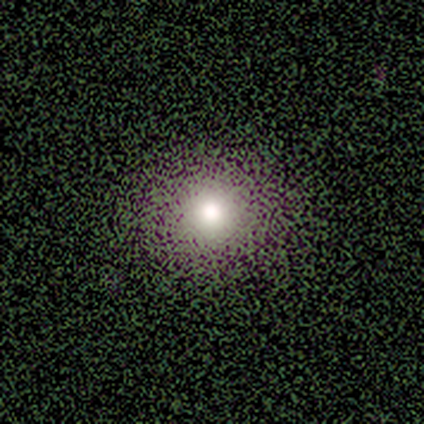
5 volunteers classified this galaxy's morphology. Q: Smooth or featured?
A: smooth (80%); runner-up: star or artifact (20%)
Q: How rounded?
A: round (50%); tied with: in between (50%)
Q: Merging?
A: none (100%)